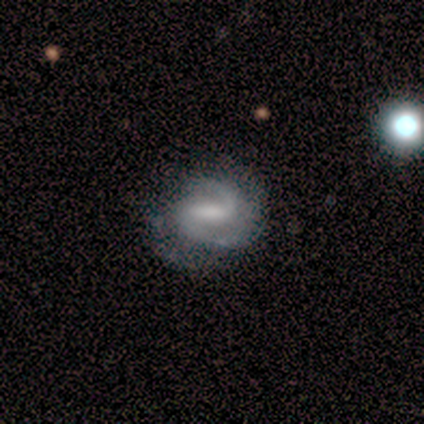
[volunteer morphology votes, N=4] A featured or disk galaxy (75%) with a weak bar (67%), 2 (100%) tight (100%) spiral arms (67%) and a moderate central bulge (33%, tied with small and none). Merging: none (50%, tied with minor disturbance).